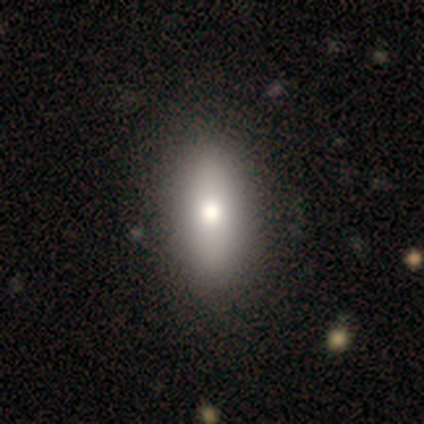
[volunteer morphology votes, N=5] A smooth galaxy with no disk features (100%) that is in between round and cigar-shaped (40%, tied with cigar-shaped).

Vote fractions:
- Smooth or featured? smooth: 100% / featured or disk: 0% / star or artifact: 0%
- How rounded? in between: 40% (tied) / cigar-shaped: 40% (tied) / round: 20%
- Merging? none: 80% / minor disturbance: 20% / major disturbance: 0% / merger: 0%